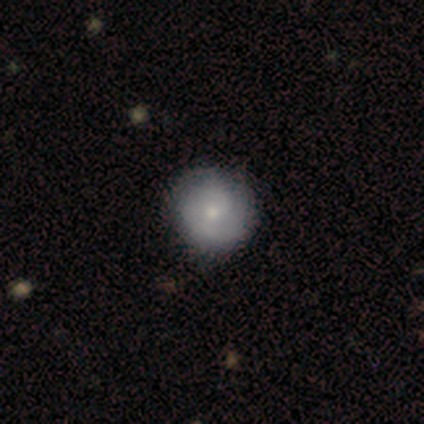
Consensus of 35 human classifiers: A featured or disk galaxy (57%) with no bar (79%), 2 (69%) tight (56%) spiral arms (84%) and a small central bulge (84%).

Vote fractions:
- Smooth or featured? featured or disk: 57% / smooth: 37% / star or artifact: 6%
- Edge-on disk? no: 95% / yes: 5%
- Bar? no: 79% / weak: 21% / strong: 0%
- Spiral arms? yes: 84% / no: 16%
- Spiral winding? tight: 56% / medium: 38% / loose: 6%
- Spiral arm count? 2: 69% / can't tell: 25% / 1: 6% / 3: 0% / 4: 0% / more than 4: 0%
- Bulge size? small: 84% / moderate: 16% / dominant: 0% / large: 0% / none: 0%
- Merging? none: 91% / minor disturbance: 6% / major disturbance: 3% / merger: 0%